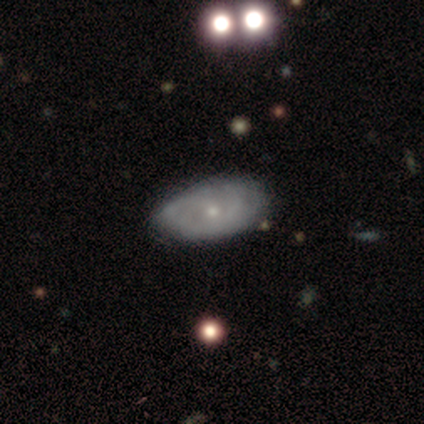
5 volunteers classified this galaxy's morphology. This appears to be a featured or disk galaxy (80%) with no bar (100%), tight (100%) spiral arms (75%) and a small central bulge (100%). Merging: none (80%).